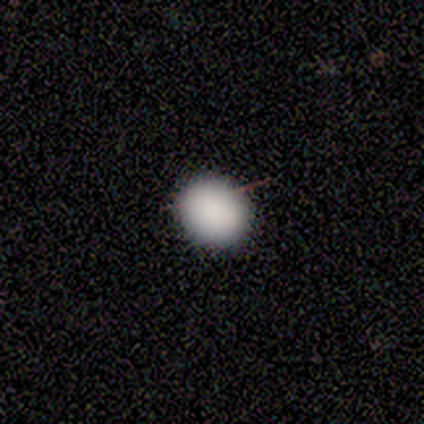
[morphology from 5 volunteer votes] Q: Smooth or featured?
A: smooth (100%)
Q: How rounded?
A: round (60%); runner-up: in between (40%)
Q: Merging?
A: none (100%)